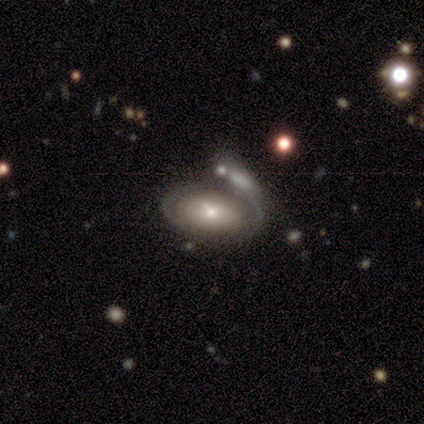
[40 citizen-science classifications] Smooth or featured? featured or disk (50%)
Edge-on disk? no (95%)
Bar? no (95%)
Spiral arms? no (63%)
Bulge size? small (58%)
Merging? major disturbance (35%)